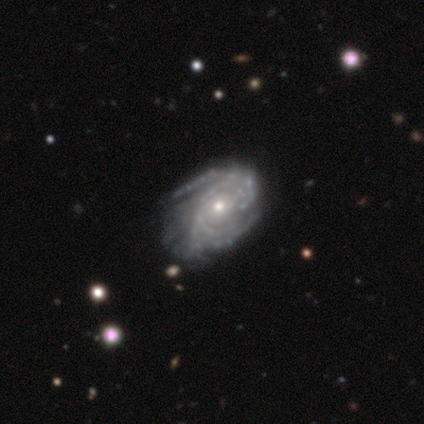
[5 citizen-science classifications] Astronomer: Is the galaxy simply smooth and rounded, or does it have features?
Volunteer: featured or disk — 100%.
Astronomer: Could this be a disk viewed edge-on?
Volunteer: no — 80%.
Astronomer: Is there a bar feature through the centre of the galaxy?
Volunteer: no — 100%.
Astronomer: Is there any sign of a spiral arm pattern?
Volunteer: yes — 75%.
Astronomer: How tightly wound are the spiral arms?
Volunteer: tight — 33%, tied with medium and loose at 33%.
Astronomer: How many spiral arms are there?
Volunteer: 2 — 33%, tied with 3 and 4 at 33%.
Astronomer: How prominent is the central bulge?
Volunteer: small — 75%.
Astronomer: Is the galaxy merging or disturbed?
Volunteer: none — 60%.